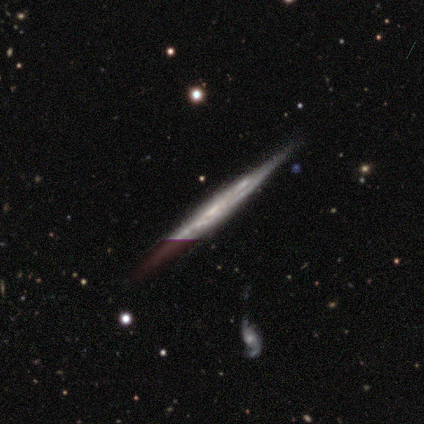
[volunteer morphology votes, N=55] smooth-or-featured: featured or disk: 82% | star or artifact: 11% | smooth: 7%
  disk-edge-on: yes: 93% | no: 7%
    edge-on-bulge: none: 86% | rounded: 10% | boxy: 5%
  merging: none: 94% | minor disturbance: 4% | major disturbance: 2% | merger: 0%